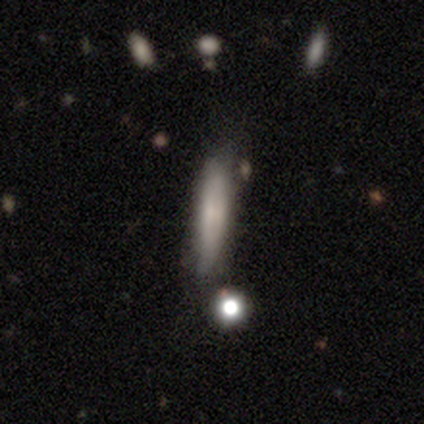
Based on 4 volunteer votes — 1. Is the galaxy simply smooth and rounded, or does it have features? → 50% smooth (tied), 50% featured or disk (tied), 0% star or artifact.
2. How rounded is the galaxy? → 100% cigar-shaped, 0% round, 0% in between.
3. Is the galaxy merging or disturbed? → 75% none, 25% minor disturbance, 0% major disturbance, 0% merger.